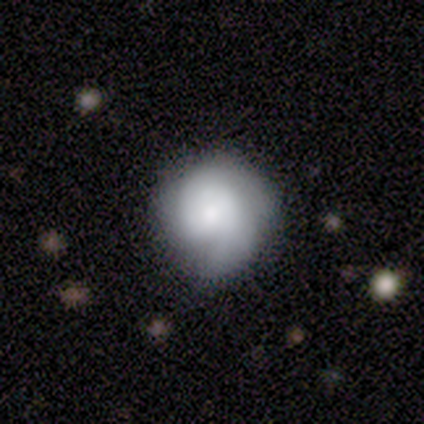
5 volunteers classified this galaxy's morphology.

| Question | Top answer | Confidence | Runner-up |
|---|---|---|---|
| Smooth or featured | featured or disk | 60% | smooth (40%) |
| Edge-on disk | no | 100% | — |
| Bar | no | 67% | strong (33%) |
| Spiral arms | yes | 100% | — |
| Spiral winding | tight | 100% | — |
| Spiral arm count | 2 | 100% | — |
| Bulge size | dominant | 33% | tied: moderate (33%), small (33%) |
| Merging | none | 80% | minor disturbance (20%) |